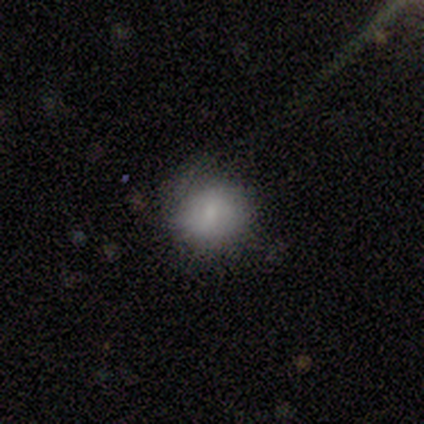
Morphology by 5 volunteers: Volunteers were most divided on "how rounded": round: 80%, in between: 20%, cigar-shaped: 0%. More confident: smooth or featured — smooth (100%); merging — none (80%).